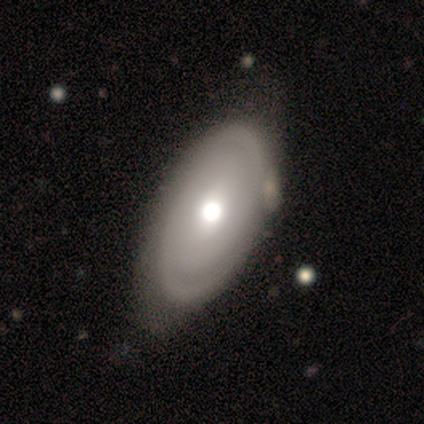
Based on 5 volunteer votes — Morphology: type=featured or disk (80%); edge-on=no (100%); bar=no (75%); spiral arms=yes (75%); winding=tight (67%); arm count=2 (67%); bulge=moderate (75%); merging=none (100%).